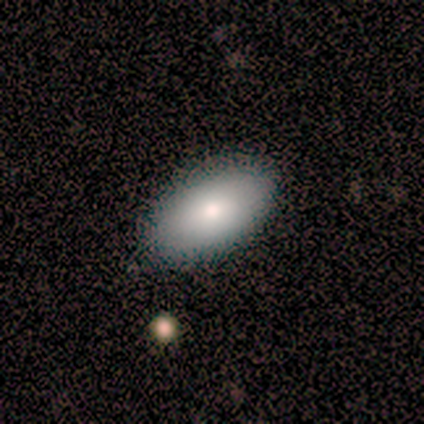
smooth 80%, featured or disk 20%, star or artifact 0%. Down the decision tree: how rounded — in between (100%); merging — none (100%).